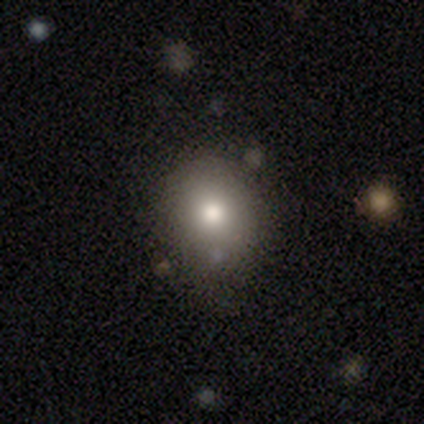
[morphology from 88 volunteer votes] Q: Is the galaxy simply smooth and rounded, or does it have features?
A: smooth — 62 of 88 (70%).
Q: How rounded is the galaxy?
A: round — 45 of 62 (73%).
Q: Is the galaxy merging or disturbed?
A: none — 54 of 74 (73%).